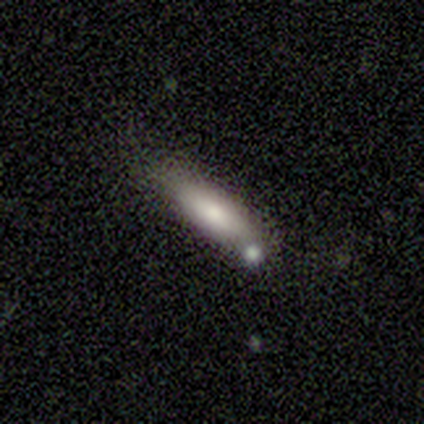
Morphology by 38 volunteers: smooth-or-featured: smooth: 84% | featured or disk: 16% | star or artifact: 0%
  how-rounded: in between: 53% | cigar-shaped: 47% | round: 0%
  merging: none: 58% | minor disturbance: 24% | merger: 13% | major disturbance: 5%